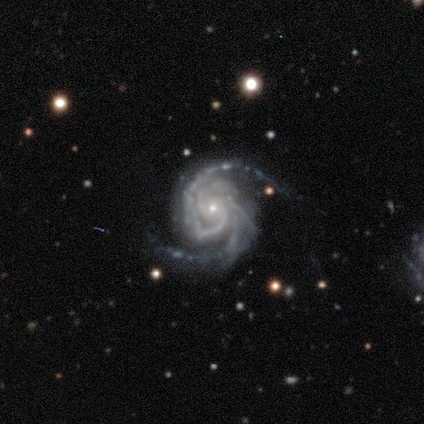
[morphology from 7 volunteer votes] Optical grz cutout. It shows a featured or disk galaxy (100%) with no bar (57%), 2 (57%) medium (71%) spiral arms (100%) and a small central bulge (86%). Merging: none (43%, tied with minor disturbance).